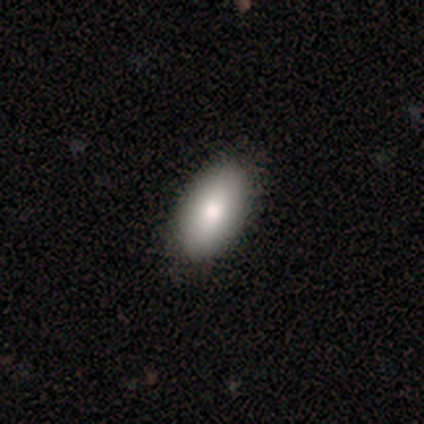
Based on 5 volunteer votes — This is clearly a smooth galaxy (100%). How rounded: clearly in between (100%). Merging: likely none (60%).